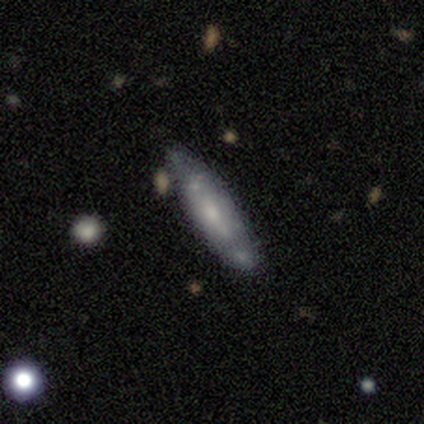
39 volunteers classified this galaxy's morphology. smooth_or_featured: smooth (p=0.54) [alt: featured or disk p=0.41]
how_rounded: cigar-shaped (p=0.81) [alt: in between p=0.14]
merging: none (p=0.59) [alt: minor disturbance p=0.22]